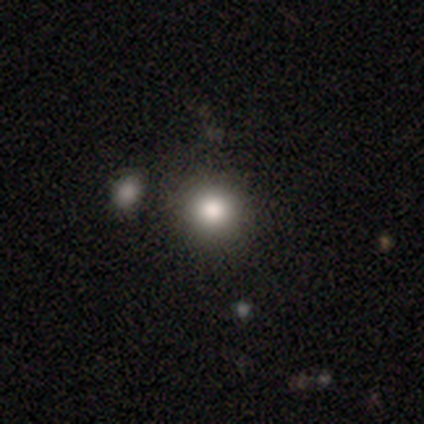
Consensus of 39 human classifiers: A smooth galaxy with no disk features (74%) that is round (97%).

Vote fractions:
- Smooth or featured? smooth: 74% / star or artifact: 18% / featured or disk: 8%
- How rounded? round: 97% / in between: 3% / cigar-shaped: 0%
- Merging? none: 81% / minor disturbance: 16% / merger: 3% / major disturbance: 0%